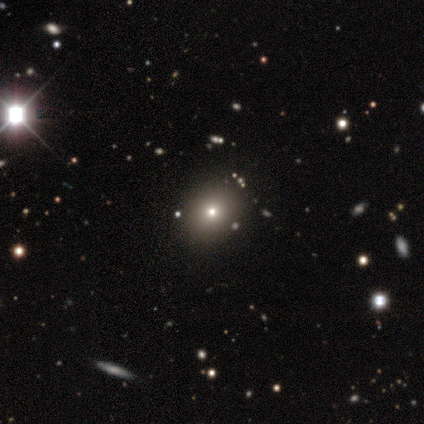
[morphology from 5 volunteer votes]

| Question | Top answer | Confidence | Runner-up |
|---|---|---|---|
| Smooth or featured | smooth | 80% | featured or disk (20%) |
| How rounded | round | 75% | in between (25%) |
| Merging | none | 80% | minor disturbance (20%) |